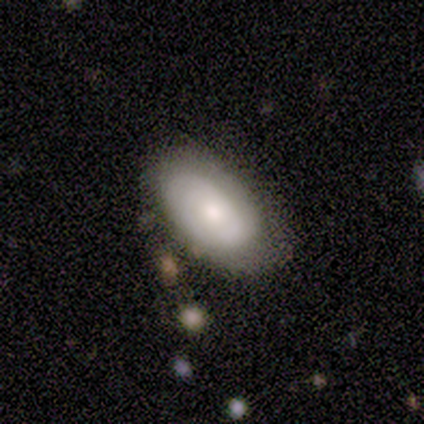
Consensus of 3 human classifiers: A featured or disk galaxy (67%) with no bar (100%), 1 (50%, tied with 2) tight (100%) spiral arms (100%) and a large central bulge (50%, tied with moderate).

Vote fractions:
- Smooth or featured? featured or disk: 67% / star or artifact: 33% / smooth: 0%
- Edge-on disk? no: 100% / yes: 0%
- Bar? no: 100% / strong: 0% / weak: 0%
- Spiral arms? yes: 100% / no: 0%
- Spiral winding? tight: 100% / medium: 0% / loose: 0%
- Spiral arm count? 1: 50% (tied) / 2: 50% (tied) / 3: 0% / 4: 0% / more than 4: 0% / can't tell: 0%
- Bulge size? large: 50% (tied) / moderate: 50% (tied) / dominant: 0% / small: 0% / none: 0%
- Merging? none: 50% (tied) / minor disturbance: 50% (tied) / major disturbance: 0% / merger: 0%